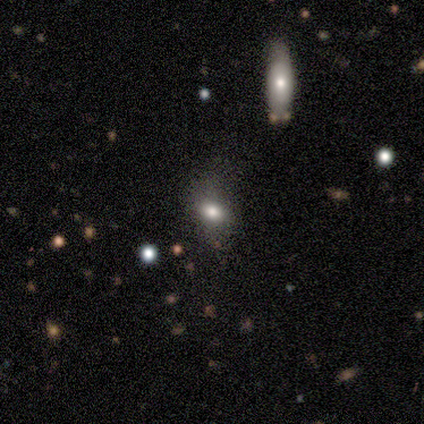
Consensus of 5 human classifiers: Morphology: type=smooth (60%); roundness=in between (100%); merging=none (33%, tied with minor disturbance and merger).